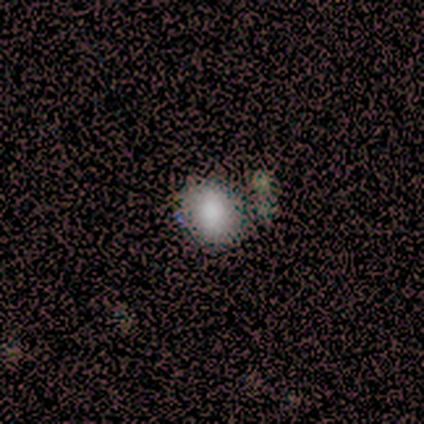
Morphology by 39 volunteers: This is likely a smooth galaxy (74%). How rounded: likely round (69%). Merging: possibly none (52%).